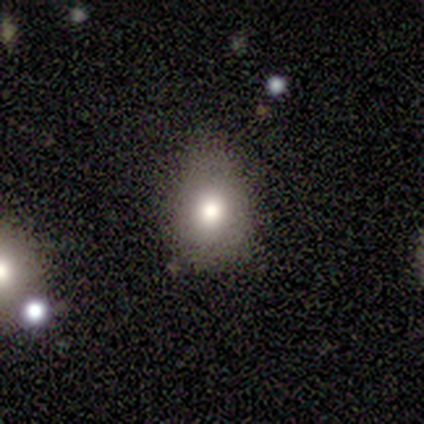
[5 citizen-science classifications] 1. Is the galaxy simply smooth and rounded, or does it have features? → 80% smooth, 20% star or artifact, 0% featured or disk.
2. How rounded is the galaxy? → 75% in between, 25% round, 0% cigar-shaped.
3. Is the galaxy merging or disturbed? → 75% minor disturbance, 25% none, 0% major disturbance, 0% merger.